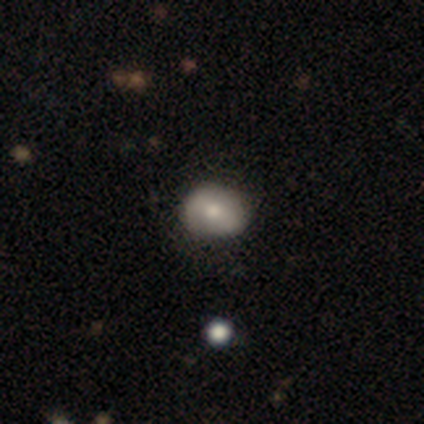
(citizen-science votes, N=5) smooth-or-featured: smooth: 80% | featured or disk: 20% | star or artifact: 0%
  how-rounded: round: 75% | in between: 25% | cigar-shaped: 0%
  merging: none: 80% | minor disturbance: 20% | major disturbance: 0% | merger: 0%